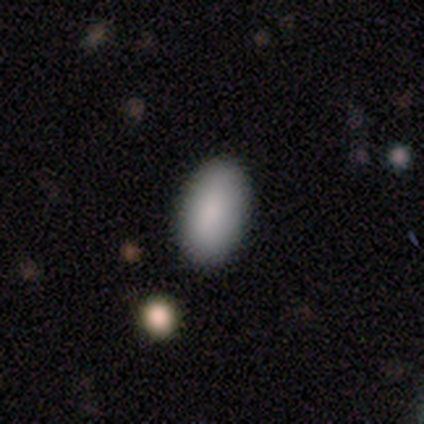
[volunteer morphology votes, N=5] Q: Smooth or featured?
A: smooth (40%); tied with: star or artifact (40%)
Q: How rounded?
A: in between (100%)
Q: Merging?
A: none (100%)